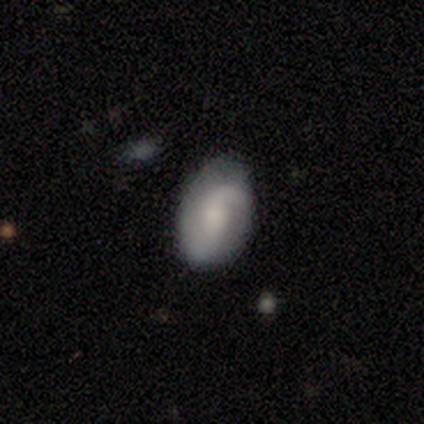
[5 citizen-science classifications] A featured or disk galaxy (80%) with no bar (75%), 2 (100%) tight (50%) spiral arms (100%) and no central bulge (50%). Merging: none (60%).